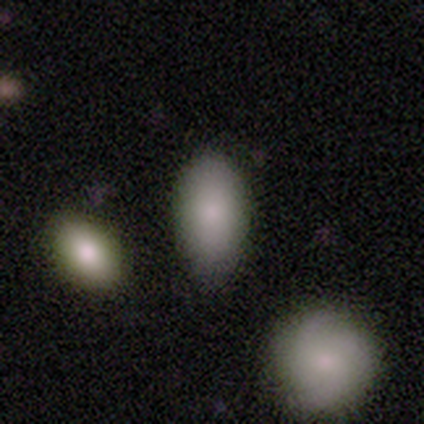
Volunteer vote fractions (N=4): Morphology: type=smooth (100%); roundness=in between (100%); merging=none (50%).